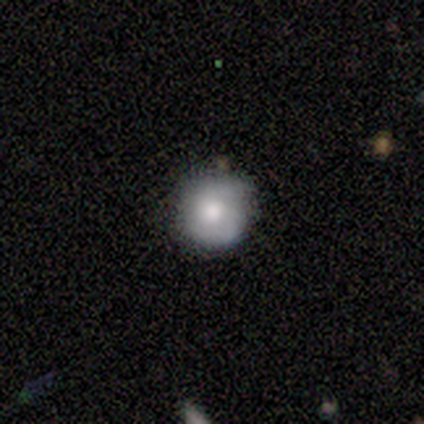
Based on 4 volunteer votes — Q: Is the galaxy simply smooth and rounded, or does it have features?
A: smooth — 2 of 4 (50%, tied with featured or disk).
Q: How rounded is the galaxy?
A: round — 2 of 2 (100%).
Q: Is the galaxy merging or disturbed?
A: none — 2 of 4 (50%).